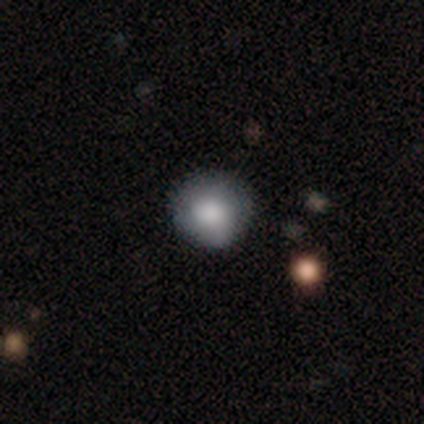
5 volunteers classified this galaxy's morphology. Smooth or featured? smooth (60%)
How rounded? round (67%)
Merging? none (60%)